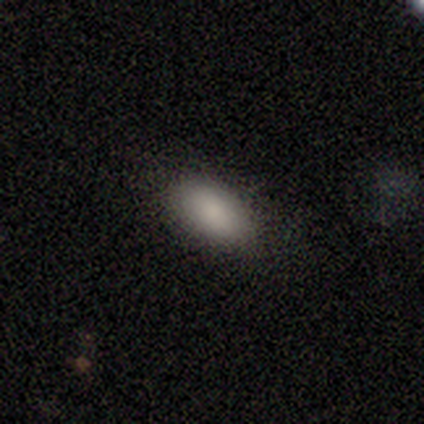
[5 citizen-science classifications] smooth 100%, featured or disk 0%, star or artifact 0%. Down the decision tree: how rounded — in between (80%); merging — none (80%).